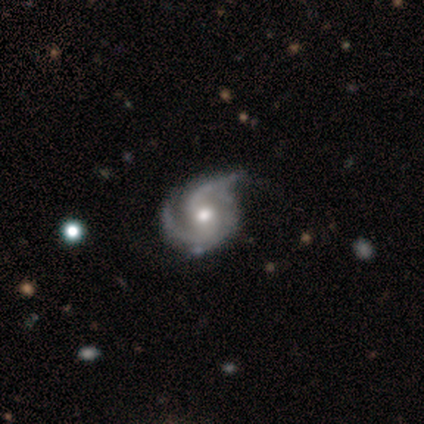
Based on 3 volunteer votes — Smooth or featured? featured or disk (100%)
Edge-on disk? no (100%)
Bar? no (67%)
Spiral arms? yes (100%)
Spiral winding? medium (100%)
Spiral arm count? 2 (67%)
Bulge size? moderate (100%)
Merging? none (67%)